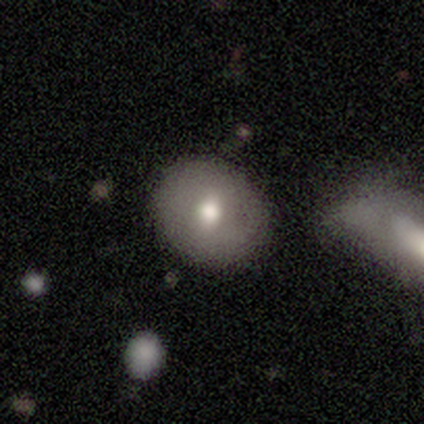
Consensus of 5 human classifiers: Q: Smooth or featured?
A: smooth (80%); runner-up: featured or disk (20%)
Q: How rounded?
A: round (75%); runner-up: in between (25%)
Q: Merging?
A: none (60%); runner-up: minor disturbance (20%)